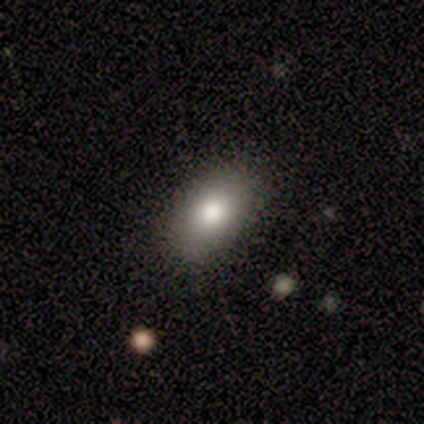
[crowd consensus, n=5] Morphology: type=featured or disk (60%); edge-on=no (67%); bar=strong (50%, tied with no); spiral arms=no (100%); bulge=dominant (50%, tied with large); merging=none (80%).